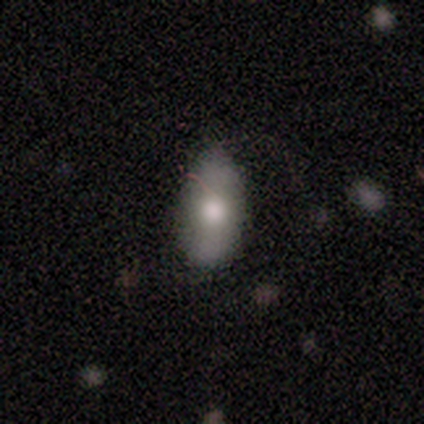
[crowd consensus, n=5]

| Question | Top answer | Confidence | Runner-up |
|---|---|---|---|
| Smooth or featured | smooth | 80% | featured or disk (20%) |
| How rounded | in between | 100% | — |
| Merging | none | 80% | minor disturbance (20%) |